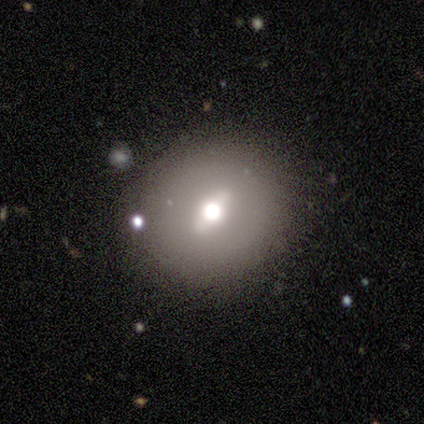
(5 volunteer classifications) Morphology: type=featured or disk (80%); edge-on=yes (50%, tied with no); edge-on bulge=rounded (100%); merging=none (100%).